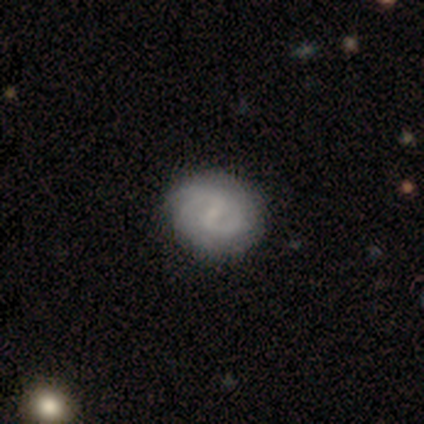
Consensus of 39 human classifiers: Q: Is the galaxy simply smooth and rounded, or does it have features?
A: featured or disk — 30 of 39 (77%).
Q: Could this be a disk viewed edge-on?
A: no — 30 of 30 (100%).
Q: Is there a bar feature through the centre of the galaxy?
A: weak — 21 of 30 (70%).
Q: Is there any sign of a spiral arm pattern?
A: yes — 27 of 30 (90%).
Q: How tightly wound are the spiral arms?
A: medium — 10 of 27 (37%).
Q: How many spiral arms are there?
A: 2 — 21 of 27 (78%).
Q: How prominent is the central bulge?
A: small — 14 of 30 (47%, tied with none).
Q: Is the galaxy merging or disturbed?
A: none — 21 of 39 (54%).